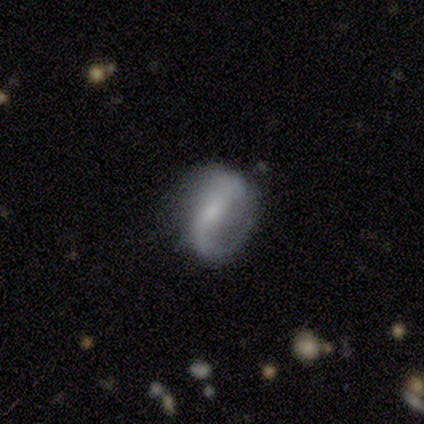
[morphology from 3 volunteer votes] A featured or disk galaxy (100%) with a strong bar (67%), 1 (33%, tied with 2 and can't tell) medium (67%) spiral arms (100%) and a small central bulge (67%).

Vote fractions:
- Smooth or featured? featured or disk: 100% / smooth: 0% / star or artifact: 0%
- Edge-on disk? no: 100% / yes: 0%
- Bar? strong: 67% / weak: 33% / no: 0%
- Spiral arms? yes: 100% / no: 0%
- Spiral winding? medium: 67% / tight: 33% / loose: 0%
- Spiral arm count? 1: 33% (tied) / 2: 33% (tied) / can't tell: 33% (tied) / 3: 0% / 4: 0% / more than 4: 0%
- Bulge size? small: 67% / moderate: 33% / dominant: 0% / large: 0% / none: 0%
- Merging? minor disturbance: 67% / none: 33% / major disturbance: 0% / merger: 0%